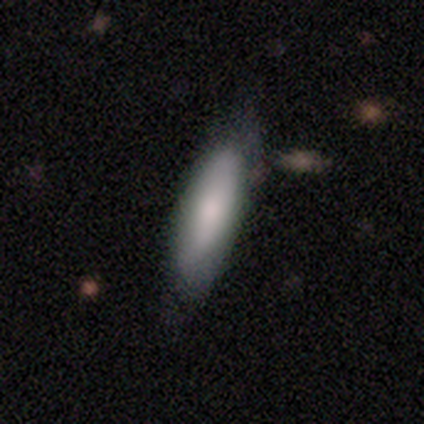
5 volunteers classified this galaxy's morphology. Q: Smooth or featured?
A: smooth (100%)
Q: How rounded?
A: cigar-shaped (100%)
Q: Merging?
A: none (100%)